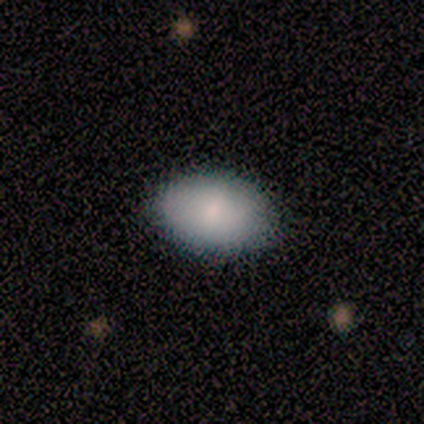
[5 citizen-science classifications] Smooth or featured: smooth — 80% (featured or disk — 20%)
How rounded: in between — 75% (round — 25%)
Merging: none — 100%